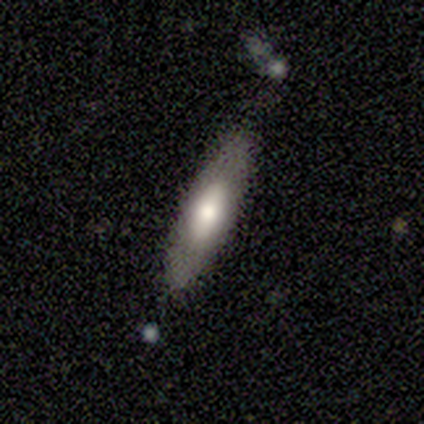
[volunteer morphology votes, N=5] Smooth or featured: smooth — 80% (featured or disk — 20%)
How rounded: in between — 50% (tied with cigar-shaped — 50%)
Merging: none — 80% (minor disturbance — 20%)